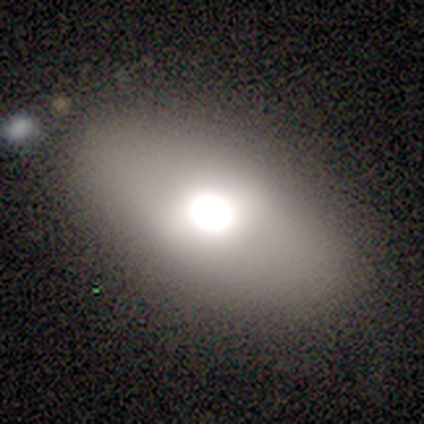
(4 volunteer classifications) Smooth or featured?
  - smooth: 75% *
  - featured or disk: 25%
  - star or artifact: 0%
How rounded?
  - in between: 100% *
  - round: 0%
  - cigar-shaped: 0%
Merging?
  - none: 100% *
  - minor disturbance: 0%
  - major disturbance: 0%
  - merger: 0%